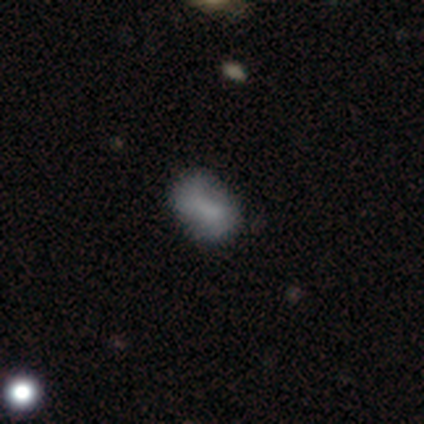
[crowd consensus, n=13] Volunteers were most divided on "merging": none: 67%, major disturbance: 17%, minor disturbance: 8%, merger: 8%. More confident: how rounded — in between (100%); smooth or featured — smooth (77%).